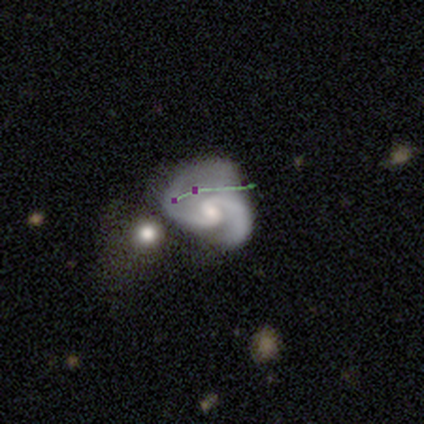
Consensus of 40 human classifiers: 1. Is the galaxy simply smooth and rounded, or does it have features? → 80% featured or disk, 12% smooth, 8% star or artifact.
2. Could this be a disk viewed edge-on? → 100% no, 0% yes.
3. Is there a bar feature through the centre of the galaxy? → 56% weak, 38% no, 6% strong.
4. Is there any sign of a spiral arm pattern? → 97% yes, 3% no.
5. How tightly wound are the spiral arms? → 55% medium, 35% loose, 10% tight.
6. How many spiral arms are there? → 84% 2, 13% 1, 3% 3, 0% 4, 0% more than 4, 0% can't tell.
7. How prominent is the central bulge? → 50% small, 41% moderate, 9% none, 0% dominant, 0% large.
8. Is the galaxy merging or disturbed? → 43% minor disturbance, 22% none, 22% major disturbance, 14% merger.